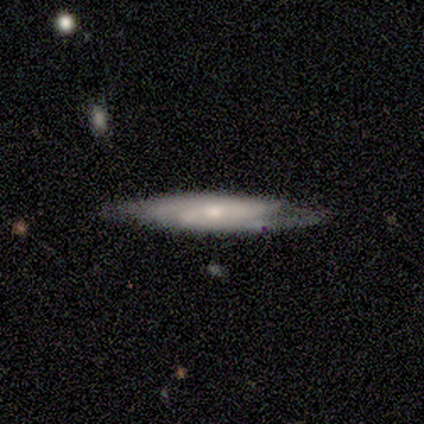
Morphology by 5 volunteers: A featured or disk galaxy (100%) viewed edge-on (60%) with no central bulge (67%).

Vote fractions:
- Smooth or featured? featured or disk: 100% / smooth: 0% / star or artifact: 0%
- Edge-on disk? yes: 60% / no: 40%
- Edge-on bulge? none: 67% / boxy: 33% / rounded: 0%
- Merging? none: 100% / minor disturbance: 0% / major disturbance: 0% / merger: 0%